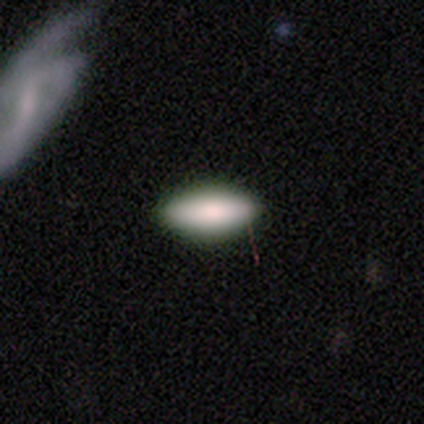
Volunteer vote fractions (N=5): smooth-or-featured: smooth: 100% | featured or disk: 0% | star or artifact: 0%
  how-rounded: in between: 100% | round: 0% | cigar-shaped: 0%
  merging: none: 100% | minor disturbance: 0% | major disturbance: 0% | merger: 0%